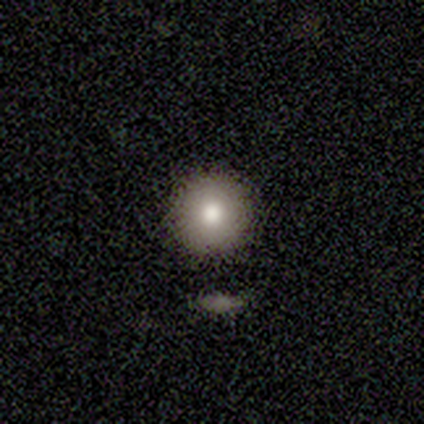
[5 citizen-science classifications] A smooth galaxy with no disk features (40%, tied with featured or disk) that is round (100%). Merging: none (75%).